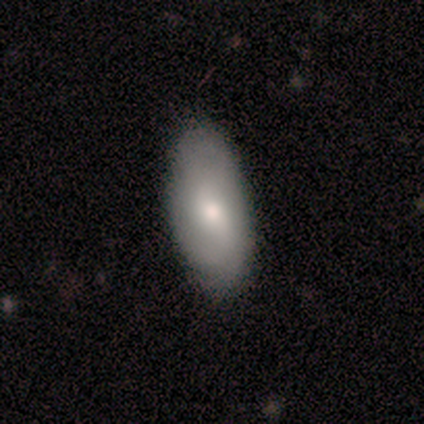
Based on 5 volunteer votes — A smooth galaxy with no disk features (60%) that is in between round and cigar-shaped (100%).

Vote fractions:
- Smooth or featured? smooth: 60% / featured or disk: 40% / star or artifact: 0%
- How rounded? in between: 100% / round: 0% / cigar-shaped: 0%
- Merging? none: 100% / minor disturbance: 0% / major disturbance: 0% / merger: 0%